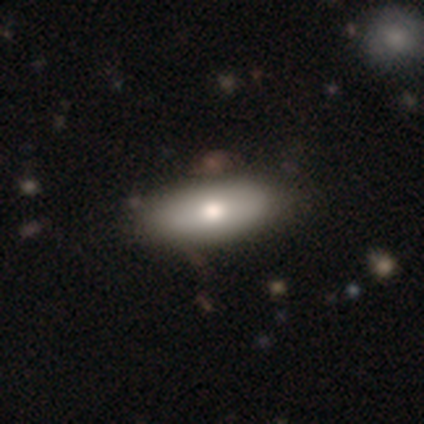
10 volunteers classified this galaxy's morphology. Overall: smooth (70%; featured or disk 30%). How rounded: in between (57%; cigar-shaped 43%). Merging: none (100%).